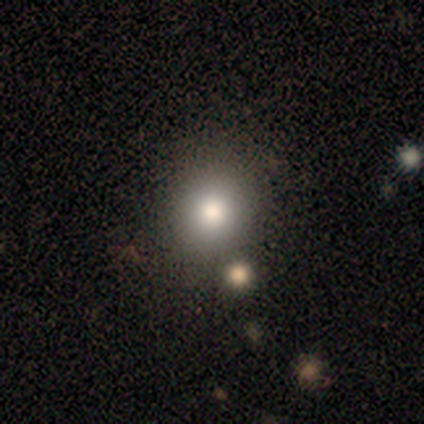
A smooth galaxy with no disk features (60%) that is round (100%).

Vote fractions:
- Smooth or featured? smooth: 60% / featured or disk: 20% / star or artifact: 20%
- How rounded? round: 100% / in between: 0% / cigar-shaped: 0%
- Merging? none: 100% / minor disturbance: 0% / major disturbance: 0% / merger: 0%